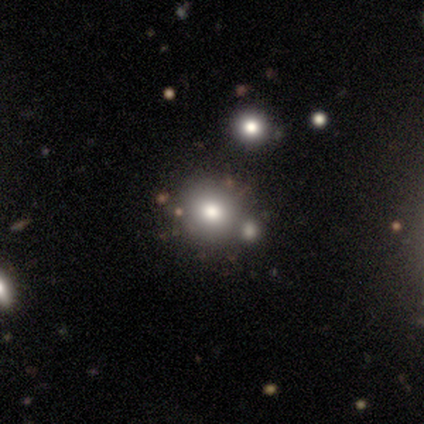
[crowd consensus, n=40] Smooth or featured? 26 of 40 (65%) said smooth. How rounded? 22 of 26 (85%) said round. Merging? 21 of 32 (66%) said none.